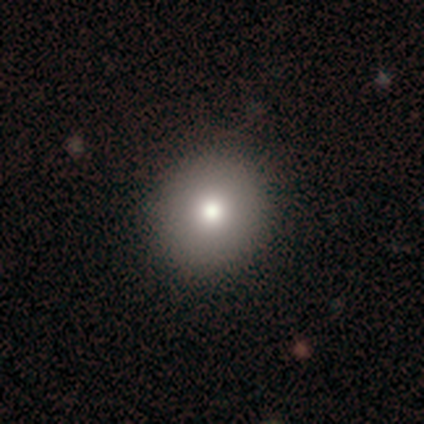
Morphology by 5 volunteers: smooth_or_featured: smooth (p=0.80) [alt: featured or disk p=0.20]
how_rounded: round (p=1.00)
merging: none (p=1.00)